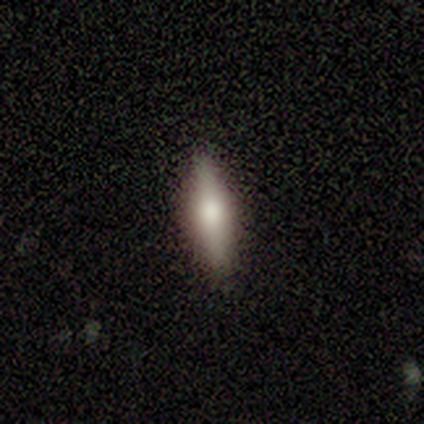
smooth 75%, featured or disk 25%, star or artifact 0%. Down the decision tree: how rounded — in between (67%); merging — none (100%).